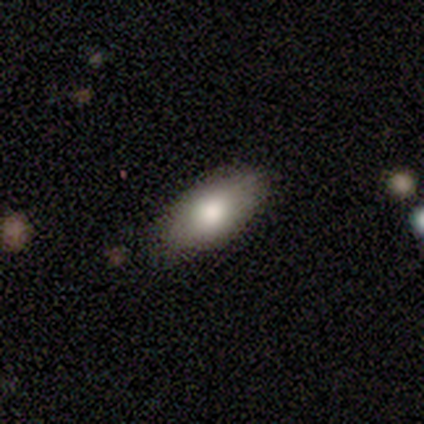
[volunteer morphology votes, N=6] Smooth or featured? smooth (100%)
How rounded? in between (100%)
Merging? none (83%)